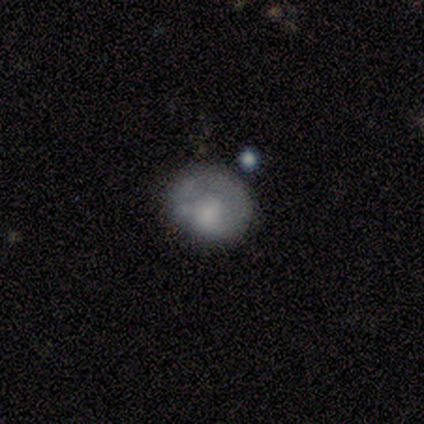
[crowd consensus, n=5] Q: Smooth or featured?
A: featured or disk (60%); runner-up: smooth (40%)
Q: Edge-on disk?
A: no (100%)
Q: Bar?
A: no (100%)
Q: Spiral arms?
A: no (100%)
Q: Bulge size?
A: dominant (33%); tied with: small (33%); none (33%)
Q: Merging?
A: none (60%); runner-up: minor disturbance (20%)